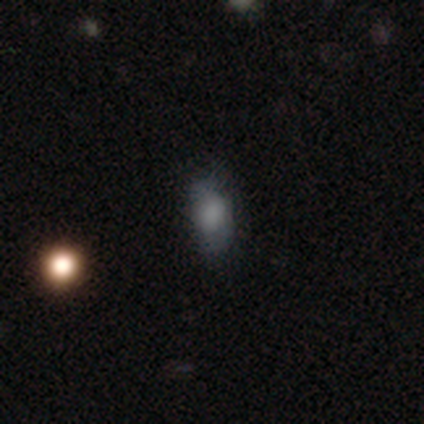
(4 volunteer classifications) Morphology: type=smooth (100%); roundness=in between (75%); merging=none (100%).